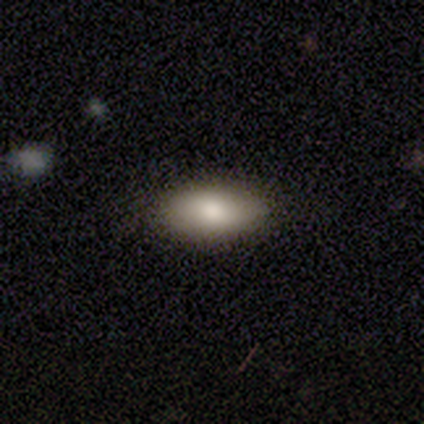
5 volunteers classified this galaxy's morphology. Smooth or featured?
  - smooth: 80% *
  - featured or disk: 20%
  - star or artifact: 0%
How rounded?
  - in between: 75% *
  - round: 25%
  - cigar-shaped: 0%
Merging?
  - none: 100% *
  - minor disturbance: 0%
  - major disturbance: 0%
  - merger: 0%